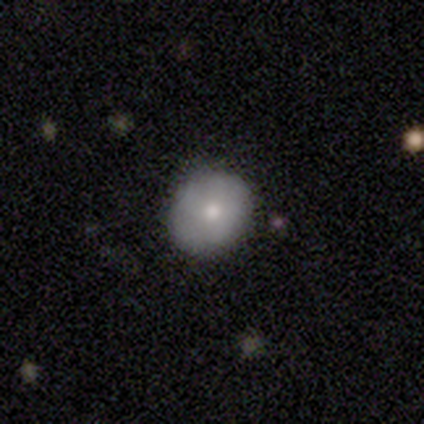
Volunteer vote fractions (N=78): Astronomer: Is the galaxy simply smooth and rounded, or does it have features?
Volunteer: smooth — 63%.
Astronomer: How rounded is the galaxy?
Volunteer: round — 88%.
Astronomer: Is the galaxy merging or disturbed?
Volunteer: none — 60%.